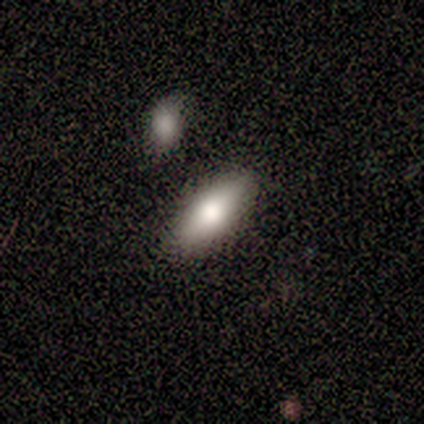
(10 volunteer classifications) Smooth or featured?
  - smooth: 80% *
  - featured or disk: 20%
  - star or artifact: 0%
How rounded?
  - in between: 88% *
  - cigar-shaped: 12%
  - round: 0%
Merging?
  - none: 90% *
  - merger: 10%
  - minor disturbance: 0%
  - major disturbance: 0%